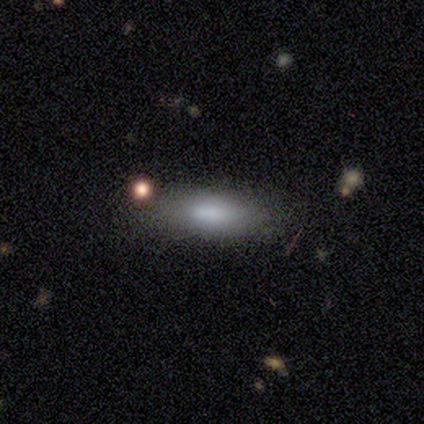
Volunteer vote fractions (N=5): Smooth or featured? smooth (100%)
How rounded? in between (60%)
Merging? none (100%)